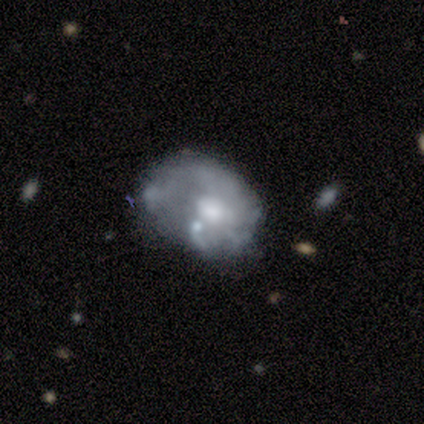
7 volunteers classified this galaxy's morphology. Smooth or featured: featured or disk — 71% (smooth — 29%)
Edge-on disk: no — 100%
Bar: no — 80% (weak — 20%)
Spiral arms: no — 60% (yes — 40%)
Bulge size: moderate — 60% (small — 20%)
Merging: major disturbance — 71% (none — 14%)